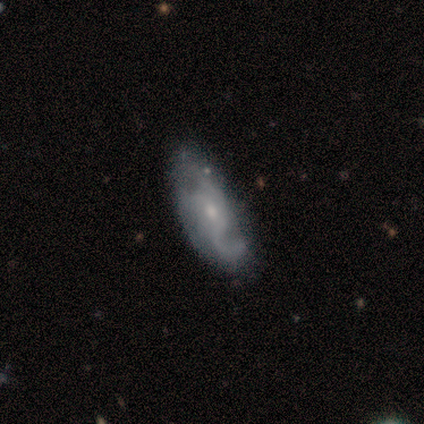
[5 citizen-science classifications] Smooth or featured? featured or disk (80%)
Edge-on disk? no (100%)
Bar? no (100%)
Spiral arms? yes (75%)
Spiral winding? loose (67%)
Spiral arm count? 1 (33%, tied with 3 and can't tell)
Bulge size? moderate (50%, tied with small)
Merging? none (80%)